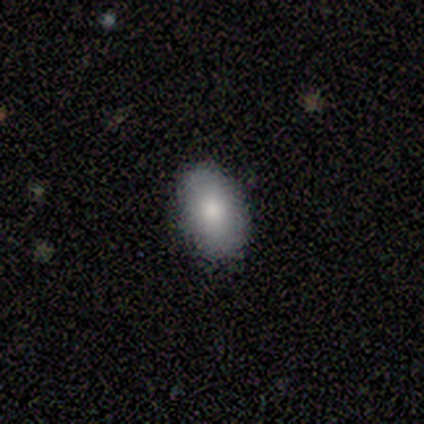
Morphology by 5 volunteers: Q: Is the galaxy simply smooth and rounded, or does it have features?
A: smooth — 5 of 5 (100%).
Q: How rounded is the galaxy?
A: in between — 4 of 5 (80%).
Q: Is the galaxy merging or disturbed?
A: none — 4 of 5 (80%).